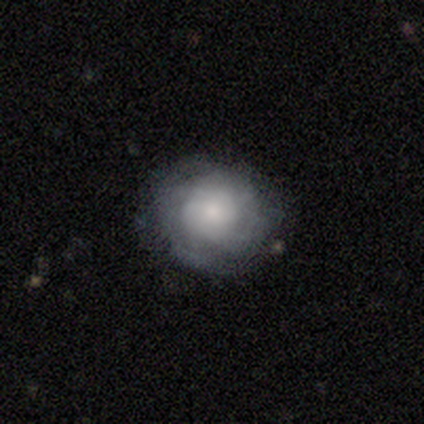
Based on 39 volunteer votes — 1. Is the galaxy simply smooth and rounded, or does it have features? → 49% featured or disk, 44% smooth, 8% star or artifact.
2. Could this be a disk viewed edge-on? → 100% no, 0% yes.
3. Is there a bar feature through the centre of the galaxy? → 89% no, 11% weak, 0% strong.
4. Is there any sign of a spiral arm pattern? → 58% yes, 42% no.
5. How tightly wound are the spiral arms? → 82% tight, 18% medium, 0% loose.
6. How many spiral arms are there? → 91% can't tell, 9% 3, 0% 1, 0% 2, 0% 4, 0% more than 4.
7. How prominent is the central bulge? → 53% moderate, 26% small, 16% large, 5% none, 0% dominant.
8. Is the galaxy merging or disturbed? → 83% none, 14% minor disturbance, 3% major disturbance, 0% merger.